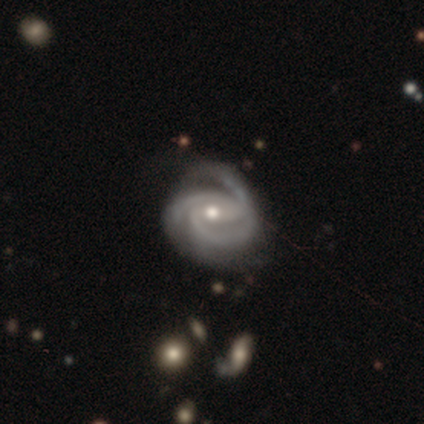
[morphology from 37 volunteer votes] This appears to be a featured or disk galaxy (89%) with a weak bar (50%), 3 (66%) tight (59%) spiral arms (100%) and a moderate central bulge (56%). Merging: none (68%).